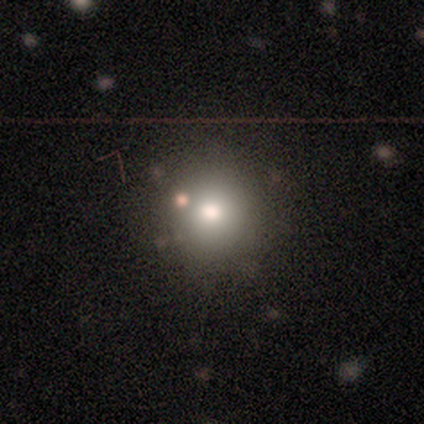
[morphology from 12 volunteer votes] Volunteers were most divided on "merging": none: 70%, minor disturbance: 20%, merger: 10%, major disturbance: 0%. More confident: how rounded — round (78%); smooth or featured — smooth (75%).